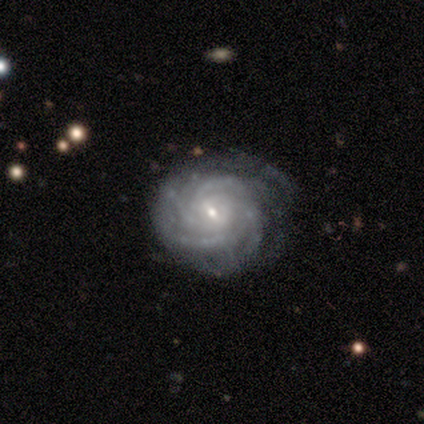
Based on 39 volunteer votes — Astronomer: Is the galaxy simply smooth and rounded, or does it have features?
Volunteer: featured or disk — 95%.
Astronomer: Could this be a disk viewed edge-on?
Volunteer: no — 97%.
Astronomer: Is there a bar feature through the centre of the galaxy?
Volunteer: weak — 53% (runner-up: no, 42%).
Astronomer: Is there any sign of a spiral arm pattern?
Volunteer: yes — 97%.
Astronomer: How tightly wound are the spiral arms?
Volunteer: tight — 77%.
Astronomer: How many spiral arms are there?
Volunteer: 4 — 43% (runner-up: can't tell, 29%).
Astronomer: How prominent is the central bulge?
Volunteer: small — 72%.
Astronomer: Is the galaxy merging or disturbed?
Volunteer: none — 74%.